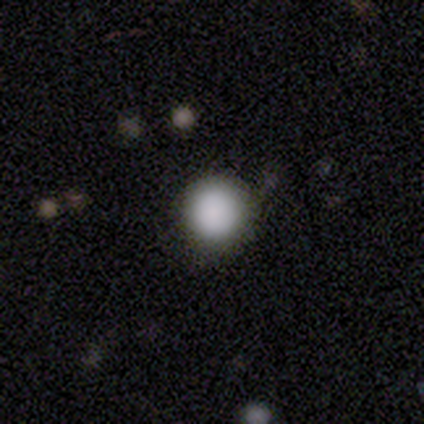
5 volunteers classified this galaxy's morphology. Q: Smooth or featured?
A: smooth (100%)
Q: How rounded?
A: round (100%)
Q: Merging?
A: none (100%)